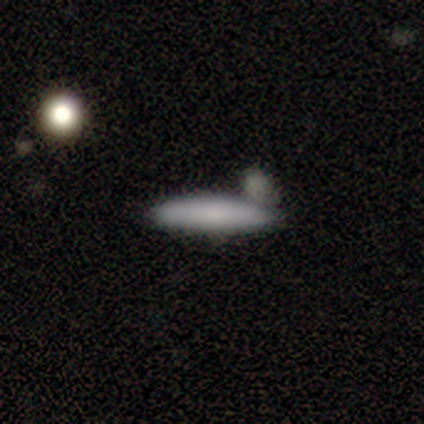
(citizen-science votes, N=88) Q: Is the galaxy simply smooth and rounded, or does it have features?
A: smooth — 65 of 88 (74%).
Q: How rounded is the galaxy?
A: cigar-shaped — 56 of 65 (86%).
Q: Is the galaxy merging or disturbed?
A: none — 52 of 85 (61%).